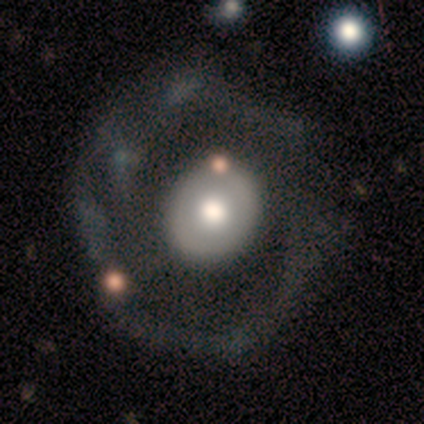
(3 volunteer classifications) Smooth or featured: smooth — 67% (featured or disk — 33%)
How rounded: round — 100%
Merging: none — 67% (merger — 33%)